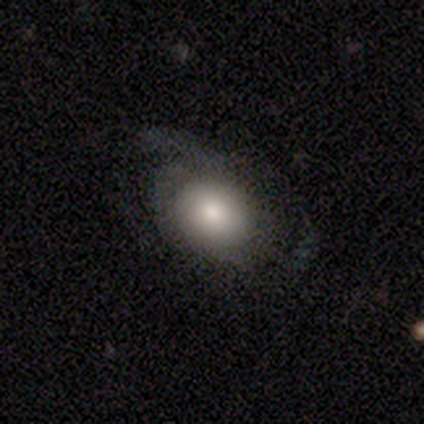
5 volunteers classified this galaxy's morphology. type=featured or disk (80%); edge-on=no (100%); bar=no (75%); spiral arms=no (75%); bulge=dominant (25%, tied with moderate, small and none); merging=none (40%, tied with minor disturbance).